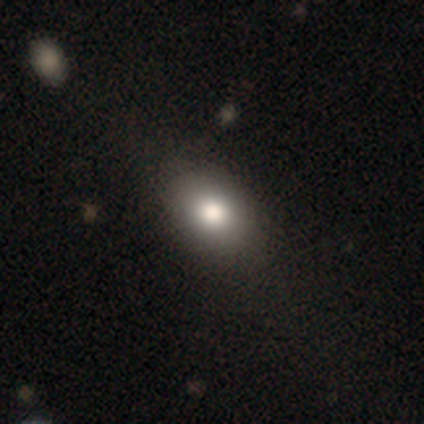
smooth_or_featured: smooth (p=0.80) [alt: featured or disk p=0.20]
how_rounded: in between (p=0.75) [alt: round p=0.25]
merging: none (p=0.80) [alt: merger p=0.20]